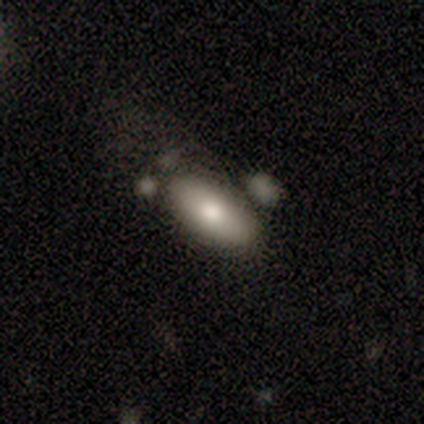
Q: Smooth or featured?
A: smooth (66%); runner-up: featured or disk (20%)
Q: How rounded?
A: in between (78%); runner-up: cigar-shaped (15%)
Q: Merging?
A: none (40%); runner-up: minor disturbance (29%)